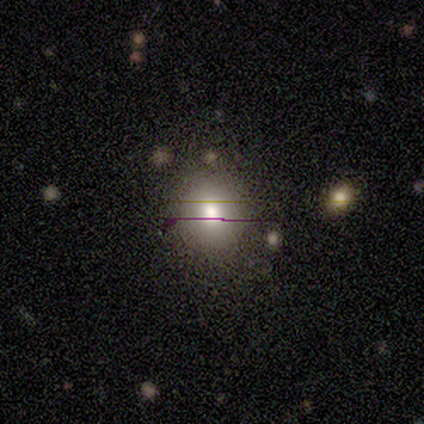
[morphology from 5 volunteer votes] smooth 60%, featured or disk 20%, star or artifact 20%. Down the decision tree: how rounded — round (100%); merging — none (100%).